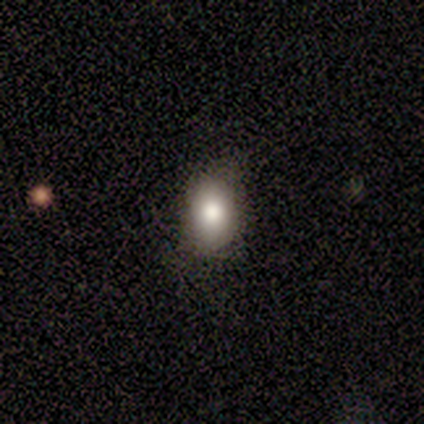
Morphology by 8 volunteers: smooth_or_featured: smooth (p=0.75) [alt: featured or disk p=0.12]
how_rounded: round (p=0.50) [tied with: in between p=0.50]
merging: none (p=0.71) [alt: minor disturbance p=0.14]